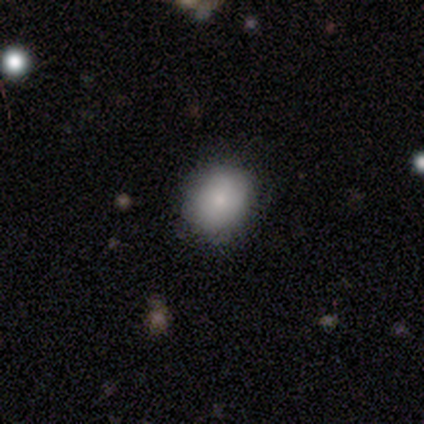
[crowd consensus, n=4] A smooth galaxy with no disk features (100%) that is round (75%). Merging: none (100%).